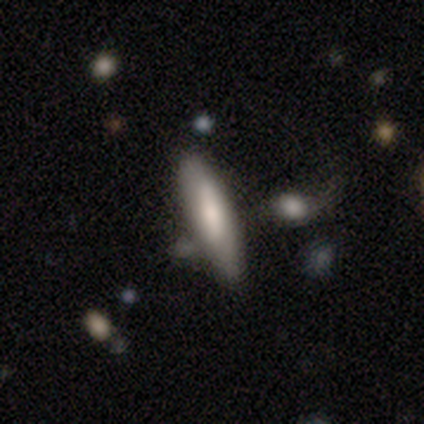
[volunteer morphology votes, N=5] A smooth galaxy with no disk features (80%) that is cigar-shaped (75%).

Vote fractions:
- Smooth or featured? smooth: 80% / featured or disk: 20% / star or artifact: 0%
- How rounded? cigar-shaped: 75% / in between: 25% / round: 0%
- Merging? none: 40% (tied) / minor disturbance: 40% (tied) / merger: 20% / major disturbance: 0%